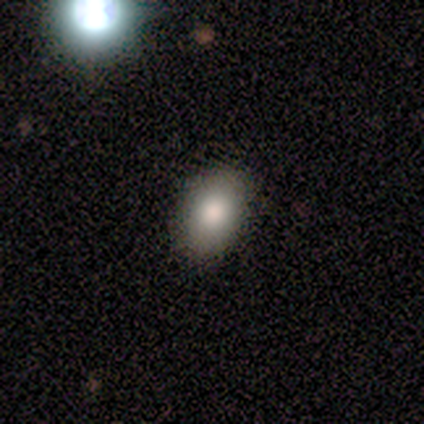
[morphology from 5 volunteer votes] smooth-or-featured: smooth: 100% | featured or disk: 0% | star or artifact: 0%
  how-rounded: in between: 100% | round: 0% | cigar-shaped: 0%
  merging: none: 100% | minor disturbance: 0% | major disturbance: 0% | merger: 0%